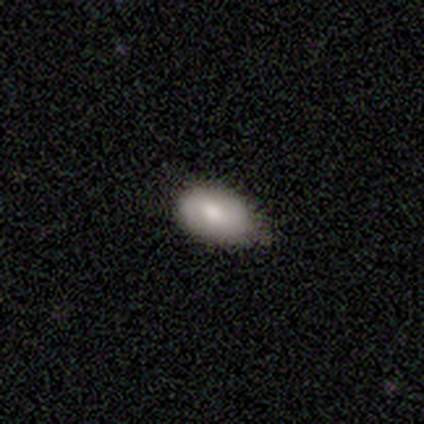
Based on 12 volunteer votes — smooth-or-featured: smooth: 58% | featured or disk: 33% | star or artifact: 8%
  how-rounded: in between: 100% | round: 0% | cigar-shaped: 0%
  merging: none: 82% | minor disturbance: 18% | major disturbance: 0% | merger: 0%